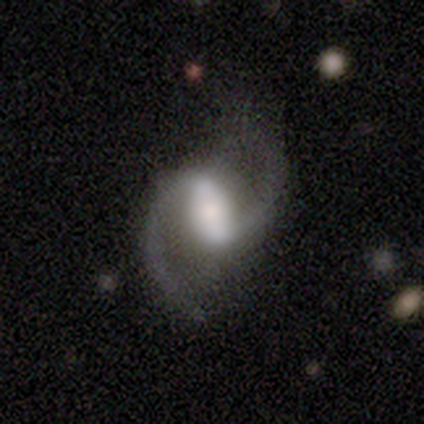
smooth_or_featured: featured or disk (p=0.90) [alt: star or artifact p=0.10]
disk_edge_on: no (p=1.00)
bar: strong (p=0.78) [alt: weak p=0.22]
has_spiral_arms: yes (p=1.00)
spiral_winding: loose (p=0.67) [alt: medium p=0.33]
spiral_arm_count: 2 (p=0.89) [alt: 1 p=0.11]
bulge_size: large (p=0.44) [alt: moderate p=0.33]
merging: none (p=0.89) [alt: major disturbance p=0.11]